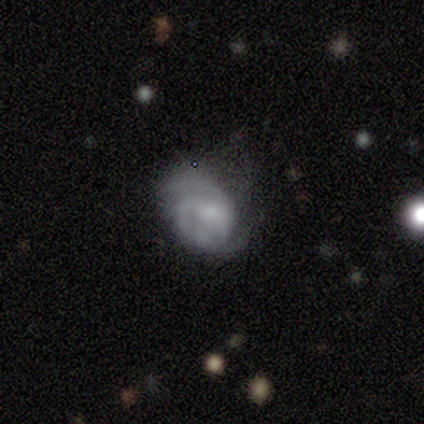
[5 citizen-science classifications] smooth-or-featured: featured or disk: 80% | smooth: 20% | star or artifact: 0%
  disk-edge-on: no: 100% | yes: 0%
    bar: weak: 50% (tied) | no: 50% (tied) | strong: 0%
    has-spiral-arms: yes: 100% | no: 0%
      spiral-winding: medium: 100% | tight: 0% | loose: 0%
      spiral-arm-count: 2: 75% | 3: 25% | 1: 0% | 4: 0% | more than 4: 0% | can't tell: 0%
    bulge-size: moderate: 100% | dominant: 0% | large: 0% | small: 0% | none: 0%
  merging: minor disturbance: 40% (tied) | major disturbance: 40% (tied) | none: 20% | merger: 0%